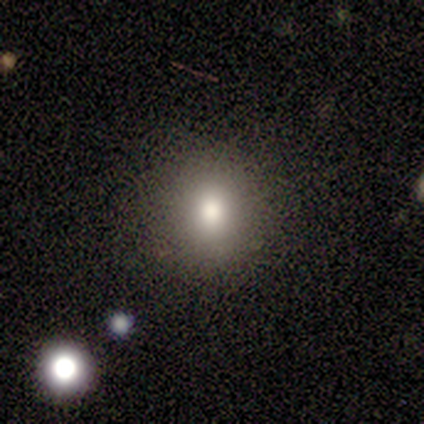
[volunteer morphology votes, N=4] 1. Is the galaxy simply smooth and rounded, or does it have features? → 100% smooth, 0% featured or disk, 0% star or artifact.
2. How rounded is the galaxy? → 75% round, 25% in between, 0% cigar-shaped.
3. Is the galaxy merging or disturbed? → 75% none, 25% minor disturbance, 0% major disturbance, 0% merger.